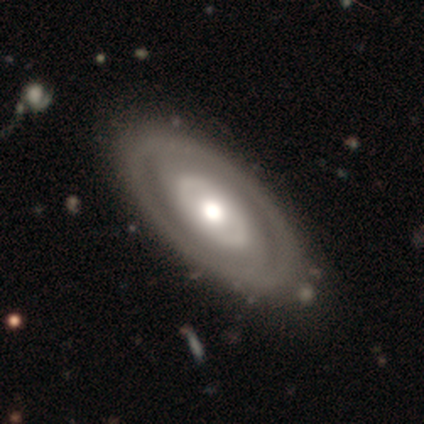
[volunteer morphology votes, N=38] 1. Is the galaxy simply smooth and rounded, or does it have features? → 82% featured or disk, 13% smooth, 5% star or artifact.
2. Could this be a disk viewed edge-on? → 100% no, 0% yes.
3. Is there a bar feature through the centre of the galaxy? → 81% no, 16% weak, 3% strong.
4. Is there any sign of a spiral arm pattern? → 68% no, 32% yes.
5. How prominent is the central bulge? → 71% moderate, 16% large, 6% small, 3% dominant, 3% none.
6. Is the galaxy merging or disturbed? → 94% none, 6% minor disturbance, 0% major disturbance, 0% merger.